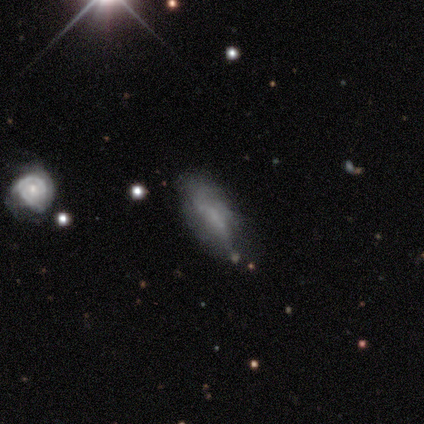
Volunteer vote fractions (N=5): Smooth or featured: smooth — 40% (tied with featured or disk — 40%)
How rounded: in between — 50% (tied with cigar-shaped — 50%)
Merging: none — 50% (tied with minor disturbance — 50%)